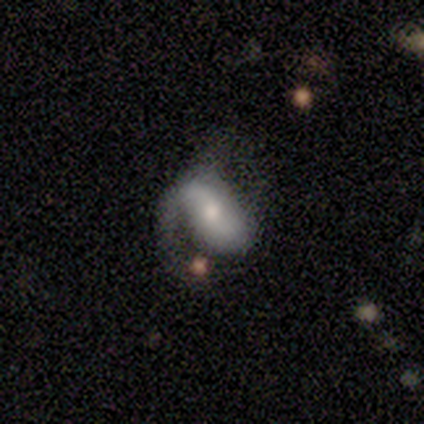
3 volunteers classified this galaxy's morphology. Smooth or featured? 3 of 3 (100%) said featured or disk. Edge-on disk? 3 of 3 (100%) said no. Bar? 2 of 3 (67%) said strong. Spiral arms? 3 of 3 (100%) said yes. Spiral winding? 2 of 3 (67%) said medium. Spiral arm count? 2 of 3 (67%) said 2. Bulge size? 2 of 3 (67%) said moderate. Merging? 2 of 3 (67%) said major disturbance.